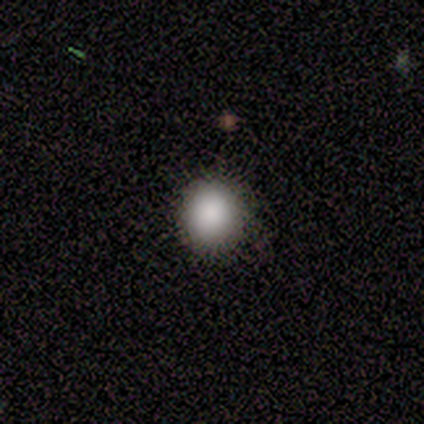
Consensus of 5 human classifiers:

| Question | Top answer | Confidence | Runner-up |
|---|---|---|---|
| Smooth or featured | smooth | 80% | star or artifact (20%) |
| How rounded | round | 100% | — |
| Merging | none | 100% | — |